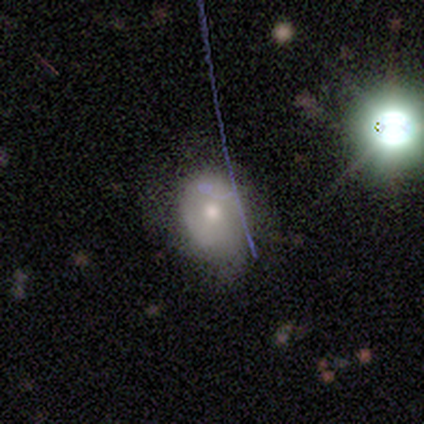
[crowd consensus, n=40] Smooth or featured? 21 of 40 (52%) said smooth. How rounded? 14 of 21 (67%) said round. Merging? 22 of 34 (65%) said none.